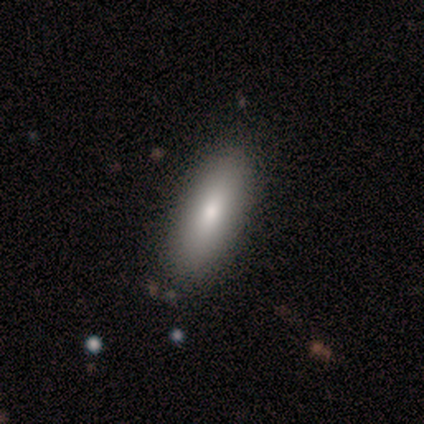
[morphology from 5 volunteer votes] Smooth or featured?
  - smooth: 80% *
  - star or artifact: 20%
  - featured or disk: 0%
How rounded?
  - in between: 100% *
  - round: 0%
  - cigar-shaped: 0%
Merging?
  - none: 100% *
  - minor disturbance: 0%
  - major disturbance: 0%
  - merger: 0%